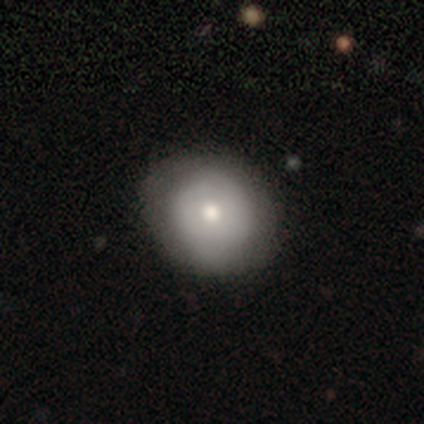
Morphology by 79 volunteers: A smooth galaxy with no disk features (65%) that is round (86%).

Vote fractions:
- Smooth or featured? smooth: 65% / featured or disk: 28% / star or artifact: 8%
- How rounded? round: 86% / in between: 14% / cigar-shaped: 0%
- Merging? none: 33% / minor disturbance: 18% / major disturbance: 0% / merger: 0%